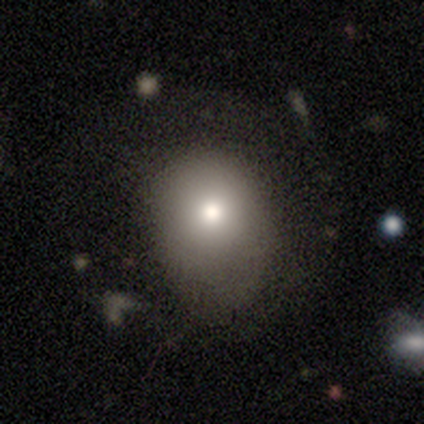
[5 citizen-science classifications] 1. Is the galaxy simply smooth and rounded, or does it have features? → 100% smooth, 0% featured or disk, 0% star or artifact.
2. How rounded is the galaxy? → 60% round, 40% in between, 0% cigar-shaped.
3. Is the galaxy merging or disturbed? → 60% none, 40% minor disturbance, 0% major disturbance, 0% merger.